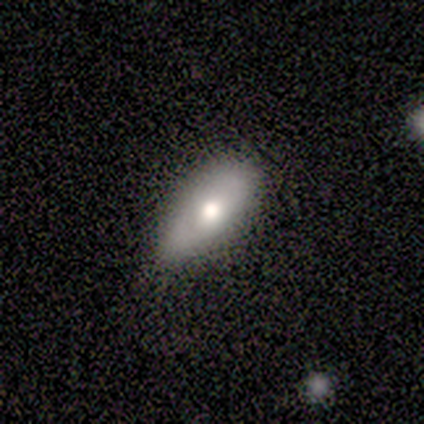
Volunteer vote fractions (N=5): This is clearly a smooth galaxy (80%). How rounded: likely in between (75%). Merging: marginally none (40%, tied with minor disturbance).